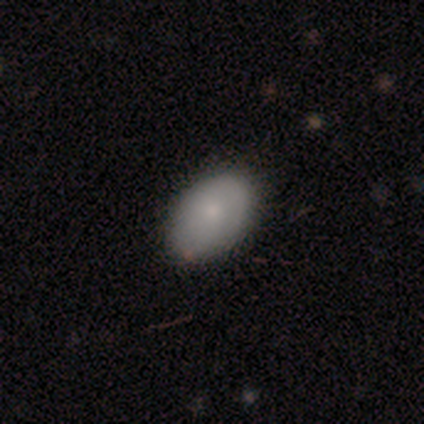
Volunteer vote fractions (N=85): Overall: smooth (84%). How rounded: in between (93%). Merging: none (85%).